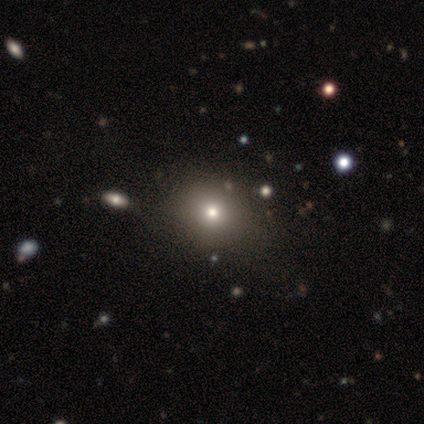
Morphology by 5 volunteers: type=featured or disk (60%); edge-on=no (67%); bar=no (100%); spiral arms=no (100%); bulge=large (50%, tied with small); merging=none (40%, tied with minor disturbance).